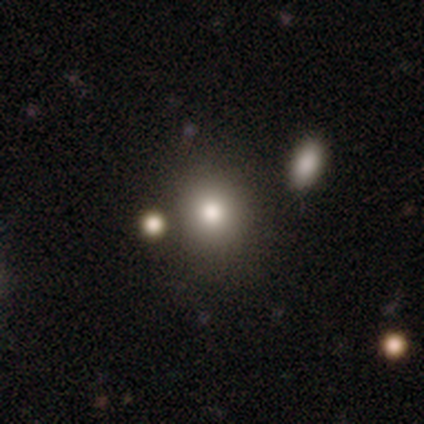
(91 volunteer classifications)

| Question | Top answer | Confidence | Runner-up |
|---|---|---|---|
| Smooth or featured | smooth | 78% | featured or disk (11%) |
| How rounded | round | 75% | in between (25%) |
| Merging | none | 75% | merger (10%) |